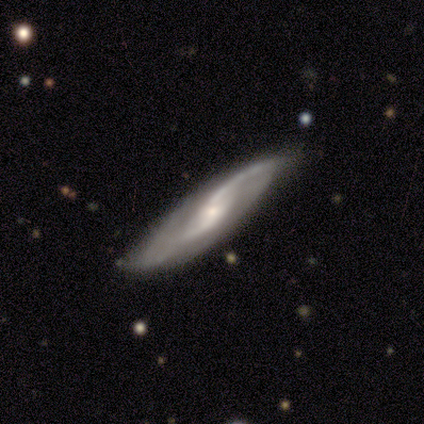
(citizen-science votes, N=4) Overall: featured or disk (75%). Edge-on disk: no (100%). Bar: weak (67%; no 33%). Spiral arms: yes (100%). Spiral arm count: 2 (67%; 1 33%). Spiral winding: medium (67%; loose 33%). Bulge size: moderate (67%; small 33%). Merging: none (100%).